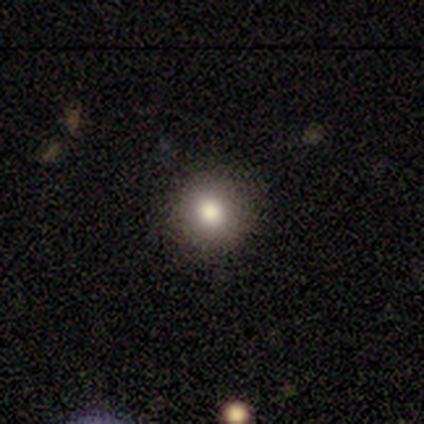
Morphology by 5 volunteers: Overall: smooth (100%). How rounded: round (80%). Merging: none (80%).